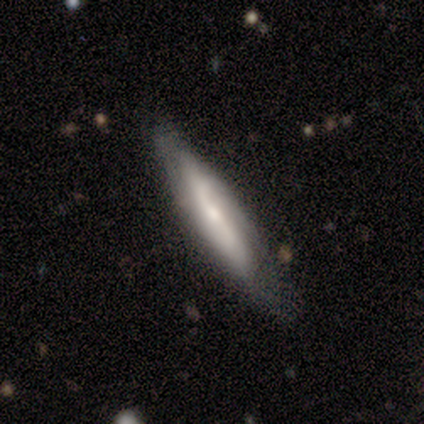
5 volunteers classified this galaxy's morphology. This is likely a featured or disk galaxy (60%). It is likely viewed edge-on (67%). Edge-on bulge: clearly none (100%). Merging: likely none (60%).